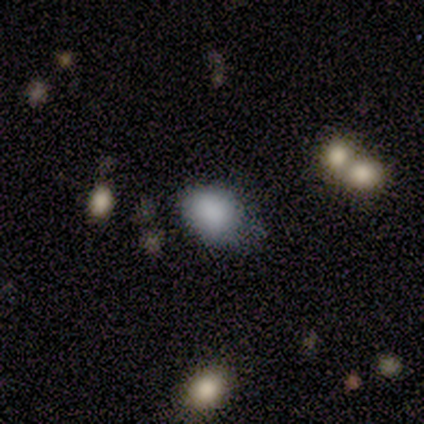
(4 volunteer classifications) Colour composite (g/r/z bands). It shows a smooth galaxy with no disk features (75%) that is in between round and cigar-shaped (67%). Merging: none (100%).